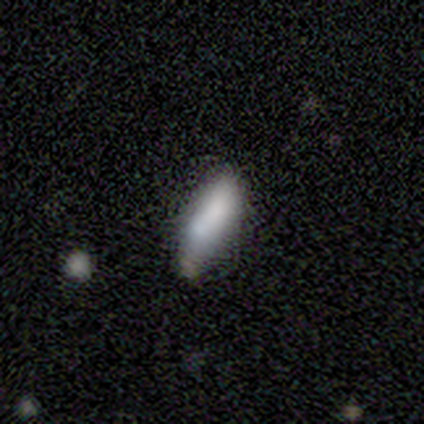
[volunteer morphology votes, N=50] This appears to be a smooth galaxy with no disk features (80%) that is in between round and cigar-shaped (70%). Merging: none (72%).